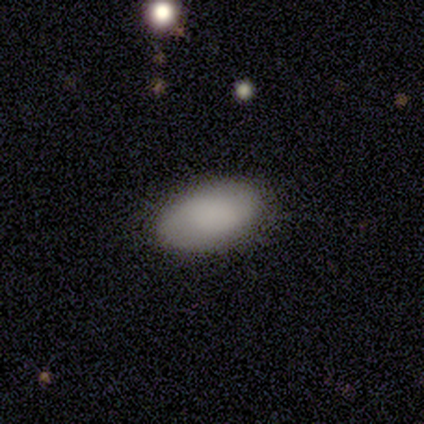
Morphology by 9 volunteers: A smooth galaxy with no disk features (100%) that is in between round and cigar-shaped (100%).

Vote fractions:
- Smooth or featured? smooth: 100% / featured or disk: 0% / star or artifact: 0%
- How rounded? in between: 100% / round: 0% / cigar-shaped: 0%
- Merging? none: 100% / minor disturbance: 0% / major disturbance: 0% / merger: 0%